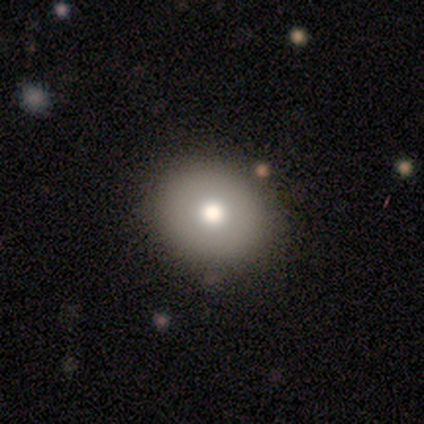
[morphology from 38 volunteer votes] Smooth or featured?
  - smooth: 71% *
  - featured or disk: 16%
  - star or artifact: 13%
How rounded?
  - round: 81% *
  - in between: 19%
  - cigar-shaped: 0%
Merging?
  - none: 91% *
  - minor disturbance: 6%
  - merger: 3%
  - major disturbance: 0%